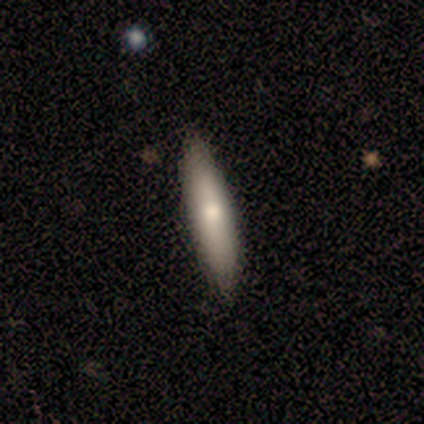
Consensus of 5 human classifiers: Smooth or featured?
  - smooth: 60% *
  - featured or disk: 40%
  - star or artifact: 0%
How rounded?
  - in between: 67% *
  - cigar-shaped: 33%
  - round: 0%
Merging?
  - none: 80% *
  - minor disturbance: 20%
  - major disturbance: 0%
  - merger: 0%